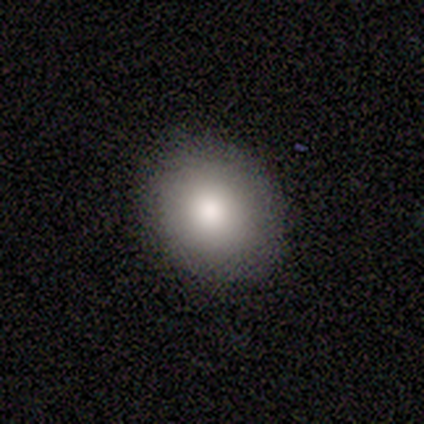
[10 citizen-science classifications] This appears to be a smooth galaxy with no disk features (90%) that is in between round and cigar-shaped (56%). Merging: none (90%).